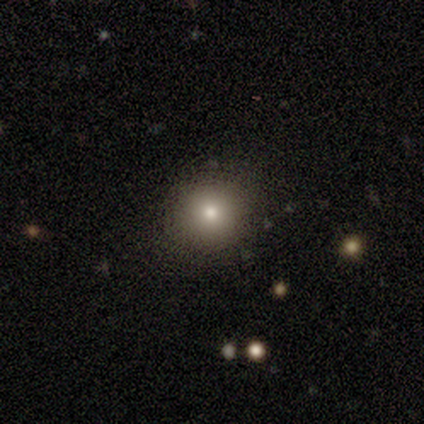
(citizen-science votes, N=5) Smooth or featured?
  - smooth: 80% *
  - featured or disk: 20%
  - star or artifact: 0%
How rounded?
  - round: 100% *
  - in between: 0%
  - cigar-shaped: 0%
Merging?
  - none: 80% *
  - major disturbance: 20%
  - minor disturbance: 0%
  - merger: 0%